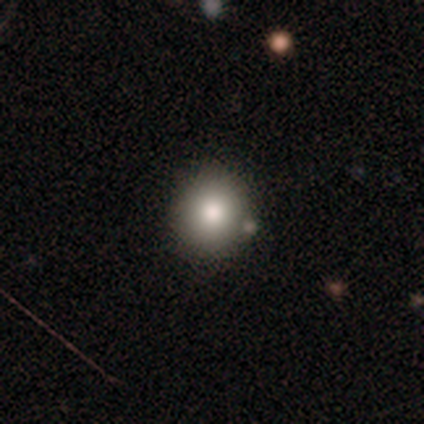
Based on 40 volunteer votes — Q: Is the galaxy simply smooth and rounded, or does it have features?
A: smooth — 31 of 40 (78%).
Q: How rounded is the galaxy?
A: round — 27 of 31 (87%).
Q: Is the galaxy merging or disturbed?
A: none — 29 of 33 (88%).